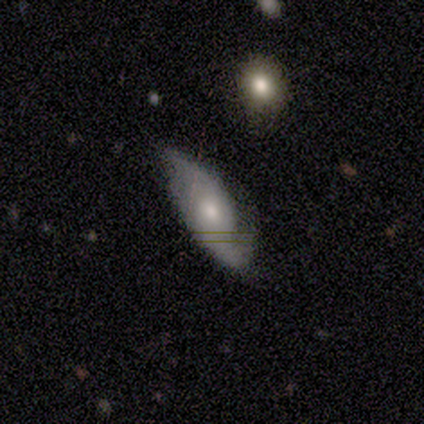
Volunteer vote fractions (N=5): Volunteers were most divided on "spiral winding": loose: 67%, medium: 33%, tight: 0%. More confident: edge-on disk — no (100%); bar — no (100%); spiral arms — yes (100%); merging — minor disturbance (100%); spiral arm count — 2 (67%); bulge size — moderate (67%); smooth or featured — featured or disk (60%).